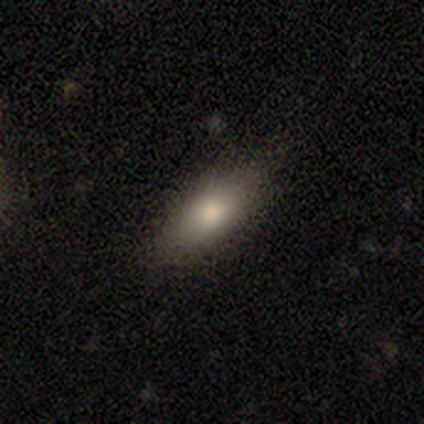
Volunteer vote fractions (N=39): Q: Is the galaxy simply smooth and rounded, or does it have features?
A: smooth — 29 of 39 (74%).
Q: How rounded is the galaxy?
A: in between — 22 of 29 (76%).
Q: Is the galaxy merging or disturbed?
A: none — 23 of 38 (61%).